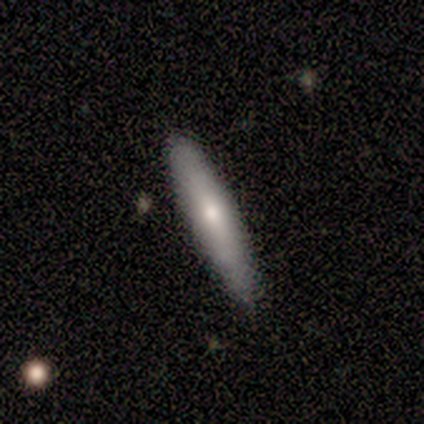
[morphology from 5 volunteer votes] Volunteers were most divided on "bulge size" (2-way tie): moderate: 50%, small: 50%, dominant: 0%, large: 0%, none: 0%. More confident: bar — no (100%); spiral arms — no (100%); merging — none (100%); edge-on disk — no (67%); smooth or featured — featured or disk (60%).